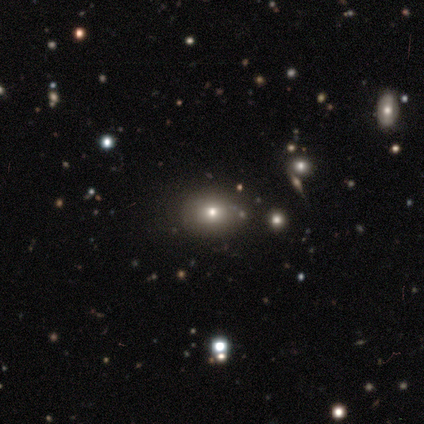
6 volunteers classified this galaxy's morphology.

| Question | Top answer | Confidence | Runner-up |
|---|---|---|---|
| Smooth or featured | smooth | 83% | star or artifact (17%) |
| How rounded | in between | 100% | — |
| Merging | none | 80% | minor disturbance (20%) |